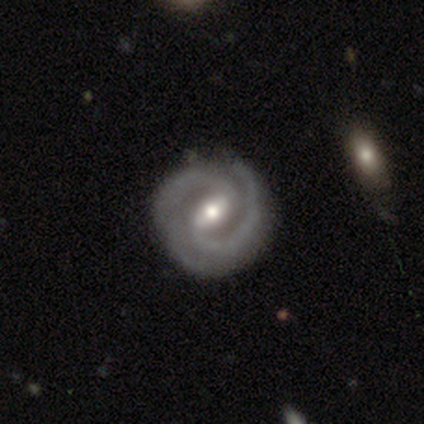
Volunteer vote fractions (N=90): smooth-or-featured: featured or disk: 91% | star or artifact: 6% | smooth: 3%
  disk-edge-on: no: 98% | yes: 2%
    bar: weak: 56% | strong: 34% | no: 10%
    has-spiral-arms: yes: 100% | no: 0%
      spiral-winding: tight: 55% | medium: 39% | loose: 6%
      spiral-arm-count: 2: 76% | 3: 15% | 4: 4% | can't tell: 4% | more than 4: 1% | 1: 0%
    bulge-size: moderate: 66% | small: 32% | none: 1% | dominant: 0% | large: 0%
  merging: none: 84% | minor disturbance: 13% | major disturbance: 4% | merger: 0%